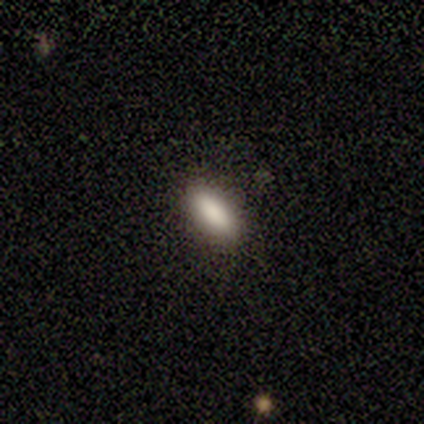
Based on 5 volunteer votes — Smooth or featured?
  - smooth: 100% *
  - featured or disk: 0%
  - star or artifact: 0%
How rounded?
  - in between: 80% *
  - cigar-shaped: 20%
  - round: 0%
Merging?
  - none: 100% *
  - minor disturbance: 0%
  - major disturbance: 0%
  - merger: 0%